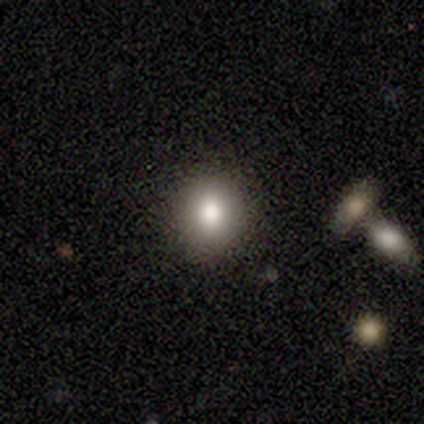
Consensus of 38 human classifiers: Smooth or featured: smooth — 84% (featured or disk — 8%)
How rounded: round — 81% (in between — 19%)
Merging: none — 91% (minor disturbance — 6%)